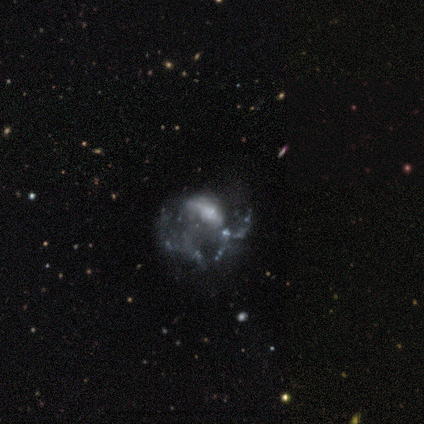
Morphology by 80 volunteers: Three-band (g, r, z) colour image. It shows a featured or disk galaxy (78%) with no bar (73%), no spiral arms (69%) and no central bulge (44%). Merging: major disturbance (55%).